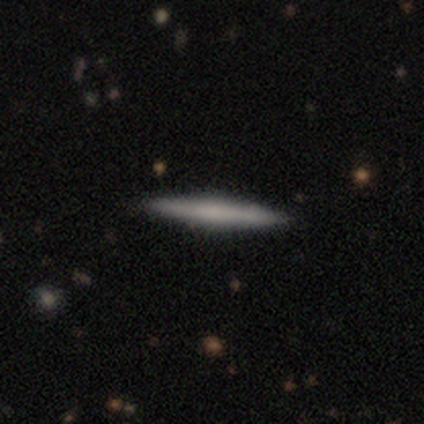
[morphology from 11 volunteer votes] Smooth or featured? smooth (64%)
How rounded? cigar-shaped (100%)
Merging? none (100%)